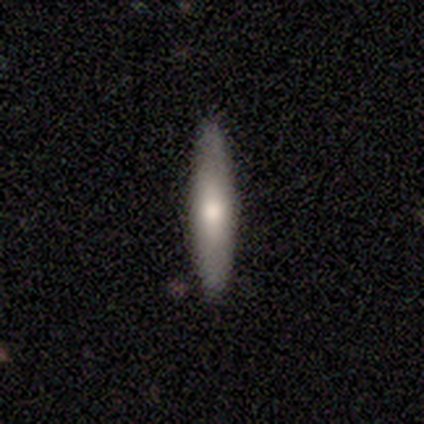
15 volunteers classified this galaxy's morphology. smooth 60%, featured or disk 40%, star or artifact 0%. Down the decision tree: how rounded — cigar-shaped (89%); merging — none (80%).